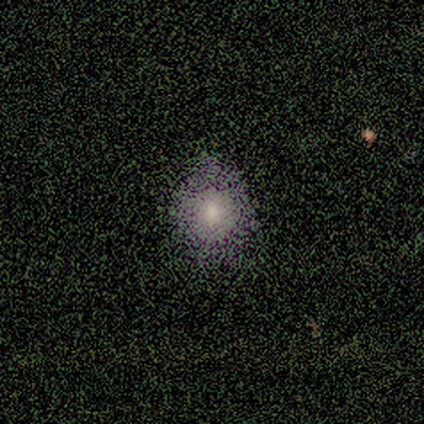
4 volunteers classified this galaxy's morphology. Smooth or featured: smooth — 75% (featured or disk — 25%)
How rounded: in between — 67% (round — 33%)
Merging: none — 75% (minor disturbance — 25%)